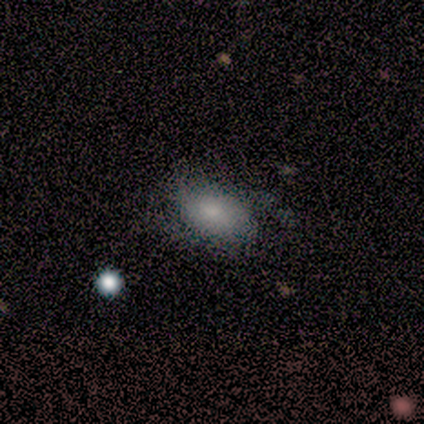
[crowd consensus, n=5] Smooth or featured: smooth — 60% (star or artifact — 40%)
How rounded: in between — 100%
Merging: none — 33% (tied with minor disturbance — 33%; major disturbance — 33%)